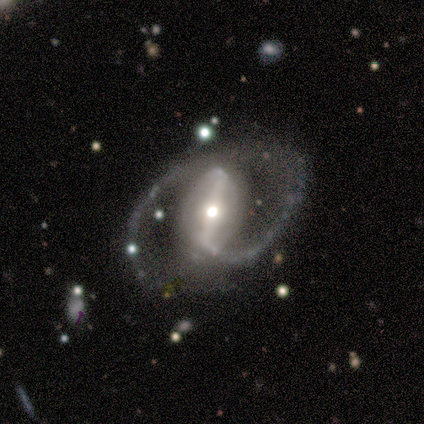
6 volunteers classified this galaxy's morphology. This is clearly a featured or disk galaxy (100%). It is clearly not viewed edge-on (100%). Bar: clearly strong (83%). Spiral arm pattern: clearly yes (100%). Spiral arm count: likely 2 (67%). Spiral winding: clearly medium (83%). Central bulge: likely moderate (67%). Merging: clearly none (83%).